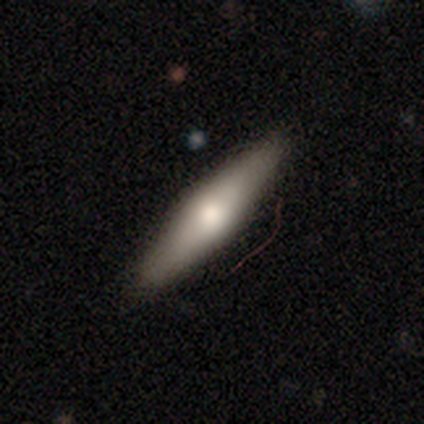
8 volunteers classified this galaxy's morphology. type=smooth (38%, tied with featured or disk); roundness=cigar-shaped (100%); merging=none (100%).